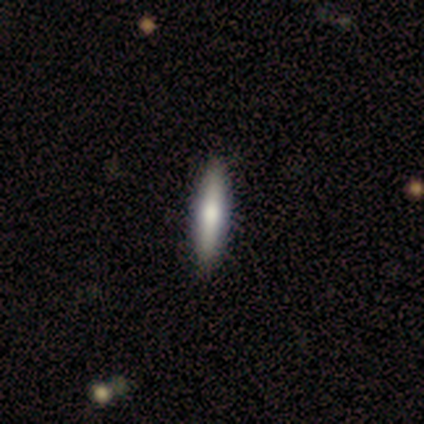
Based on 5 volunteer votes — This appears to be a smooth galaxy with no disk features (80%) that is cigar-shaped (100%). Merging: none (100%).